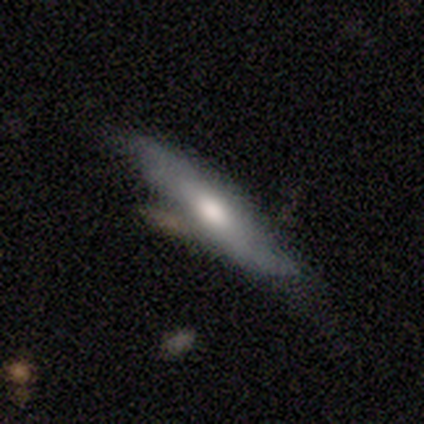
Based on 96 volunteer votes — A smooth galaxy with no disk features (51%) that is cigar-shaped (78%). Merging: none (52%).